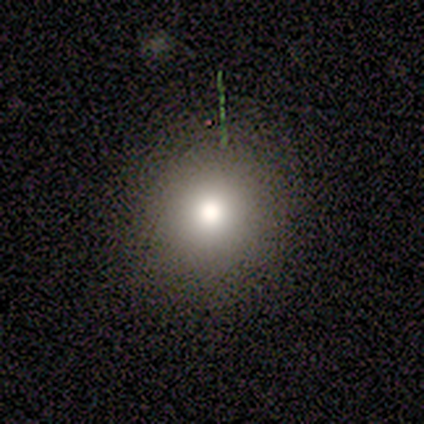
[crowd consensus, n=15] Morphology: type=smooth (53%); roundness=round (88%); merging=none (100%).